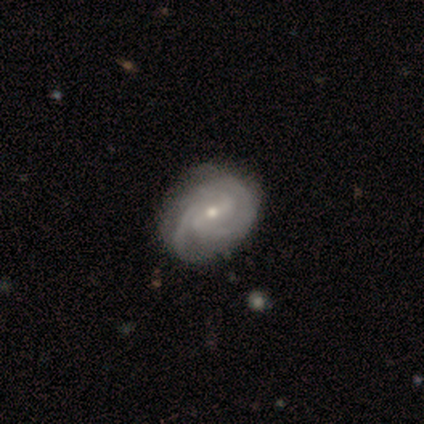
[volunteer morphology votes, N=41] Overall: featured or disk (95%). Edge-on disk: no (100%). Bar: weak (49%; strong 33%). Spiral arms: yes (100%). Spiral arm count: 2 (67%). Spiral winding: tight (69%). Bulge size: small (59%; moderate 38%). Merging: none (55%; minor disturbance 18%).